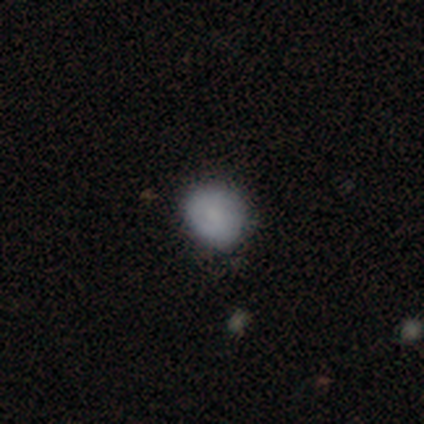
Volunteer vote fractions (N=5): Consensus on every question: smooth or featured — smooth (100%); how rounded — round (100%); merging — none (100%).